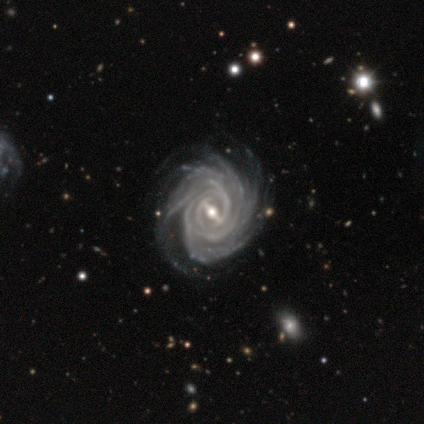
This is clearly a featured or disk galaxy (100%). It is clearly not viewed edge-on (100%). Bar: clearly strong (80%). Spiral arm pattern: clearly yes (100%). Spiral arm count: marginally can't tell (40%). Spiral winding: clearly tight (100%). Central bulge: clearly moderate (80%). Merging: marginally none (40%, tied with major disturbance).